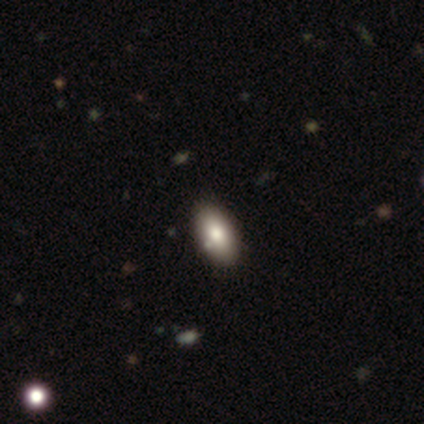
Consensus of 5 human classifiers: smooth-or-featured: smooth: 100% | featured or disk: 0% | star or artifact: 0%
  how-rounded: in between: 100% | round: 0% | cigar-shaped: 0%
  merging: none: 80% | minor disturbance: 20% | major disturbance: 0% | merger: 0%